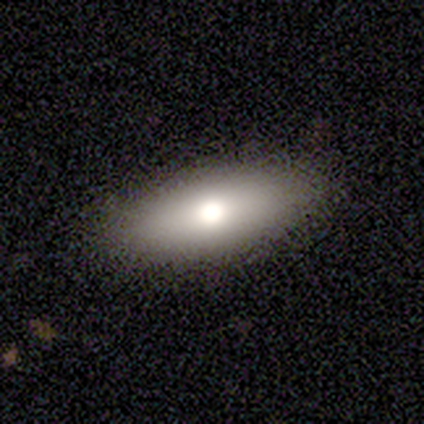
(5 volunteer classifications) This is clearly a smooth galaxy (80%). How rounded: possibly in between (50%, tied with cigar-shaped). Merging: clearly none (100%).